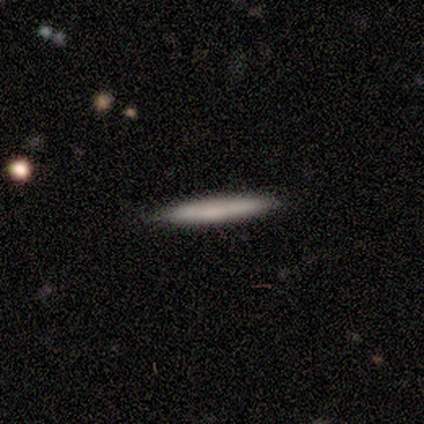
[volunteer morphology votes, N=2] Overall: smooth (100%). How rounded: cigar-shaped (100%). Merging: none (50%, tied with minor disturbance).